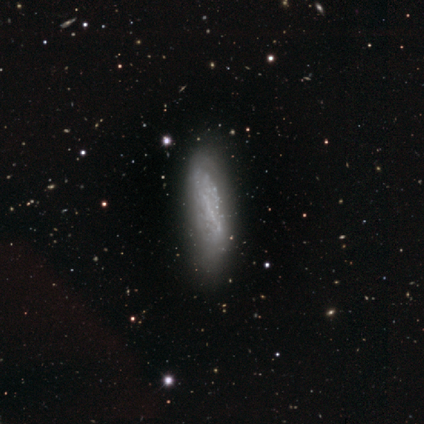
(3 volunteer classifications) This appears to be a featured or disk galaxy (67%) with no bar (100%), no spiral arms (100%) and no central bulge (100%). Merging: none (67%).